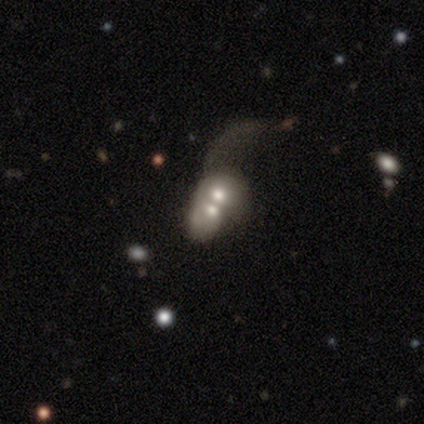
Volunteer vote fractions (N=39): This is possibly a featured or disk galaxy (51%). It is clearly not viewed edge-on (95%). Bar: clearly no (84%). Spiral arm pattern: clearly no (89%). Central bulge: possibly moderate (58%). Merging: likely merger (79%).